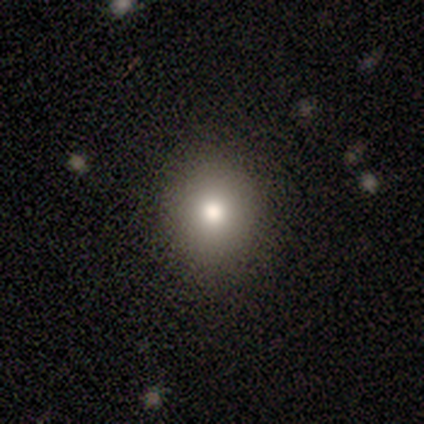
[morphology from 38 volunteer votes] Smooth or featured? 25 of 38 (66%) said smooth. How rounded? 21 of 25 (84%) said round. Merging? 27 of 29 (93%) said none.